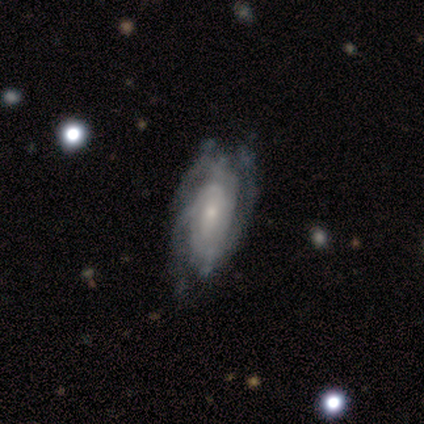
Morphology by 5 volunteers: Smooth or featured: featured or disk — 60% (smooth — 20%)
Edge-on disk: no — 100%
Bar: strong — 33% (tied with weak — 33%; no — 33%)
Spiral arms: yes — 100%
Spiral winding: tight — 100%
Spiral arm count: 2 — 33% (tied with 3 — 33%; can't tell — 33%)
Bulge size: dominant — 33% (tied with moderate — 33%; small — 33%)
Merging: none — 75% (minor disturbance — 25%)